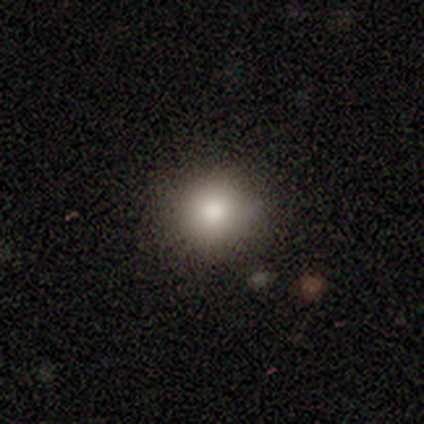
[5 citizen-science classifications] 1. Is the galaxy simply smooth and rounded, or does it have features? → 80% smooth, 20% star or artifact, 0% featured or disk.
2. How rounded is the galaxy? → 75% round, 25% in between, 0% cigar-shaped.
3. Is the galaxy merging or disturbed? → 100% none, 0% minor disturbance, 0% major disturbance, 0% merger.